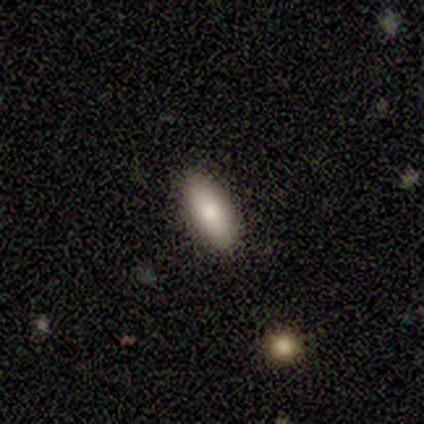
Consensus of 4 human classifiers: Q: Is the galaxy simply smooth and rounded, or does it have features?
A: smooth — 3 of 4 (75%).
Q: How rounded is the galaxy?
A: in between — 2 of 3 (67%).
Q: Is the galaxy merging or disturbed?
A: none — 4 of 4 (100%).